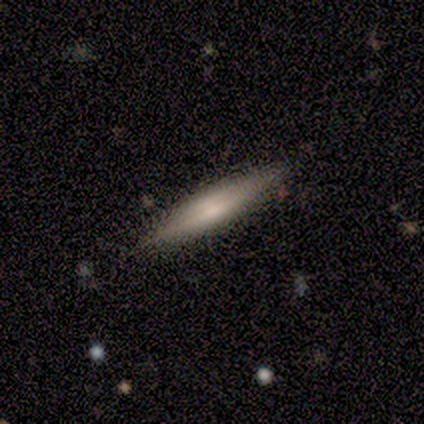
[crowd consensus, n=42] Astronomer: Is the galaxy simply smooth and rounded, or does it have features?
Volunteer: featured or disk — 52% (runner-up: smooth, 45%).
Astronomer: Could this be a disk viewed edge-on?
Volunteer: yes — 100%.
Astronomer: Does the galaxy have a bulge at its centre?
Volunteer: rounded — 59%.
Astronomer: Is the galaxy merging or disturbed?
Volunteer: none — 85%.